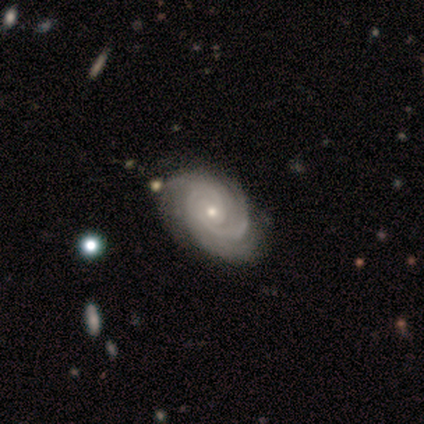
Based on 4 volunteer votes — Smooth or featured? 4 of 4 (100%) said featured or disk. Edge-on disk? 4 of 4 (100%) said no. Bar? 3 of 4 (75%) said no. Spiral arms? 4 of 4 (100%) said yes. Spiral winding? 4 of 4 (100%) said tight. Spiral arm count? 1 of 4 (25%, tied with 3, 4 and can't tell) said 2. Bulge size? 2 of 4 (50%, tied with small) said moderate. Merging? 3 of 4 (75%) said none.